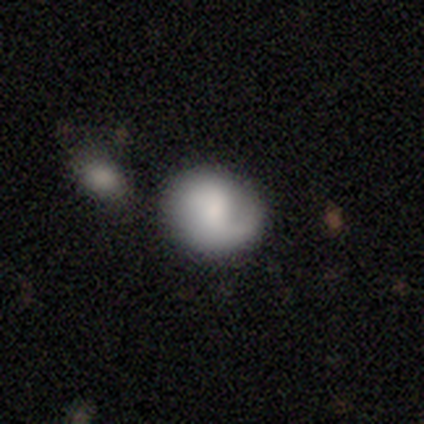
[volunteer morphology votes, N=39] Q: Smooth or featured?
A: smooth (49%); runner-up: featured or disk (41%)
Q: How rounded?
A: round (84%); runner-up: in between (16%)
Q: Merging?
A: none (69%); runner-up: minor disturbance (23%)